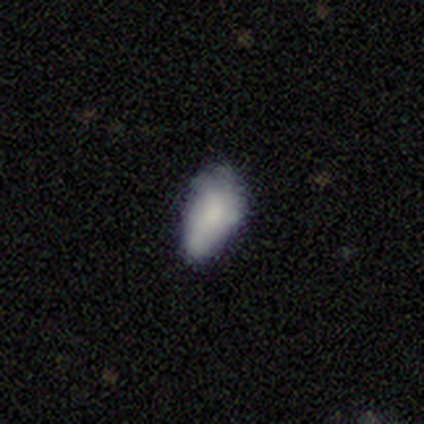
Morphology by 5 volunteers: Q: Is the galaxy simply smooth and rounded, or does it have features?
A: smooth — 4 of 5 (80%).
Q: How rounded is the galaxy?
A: in between — 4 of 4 (100%).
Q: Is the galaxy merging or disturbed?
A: none — 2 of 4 (50%).